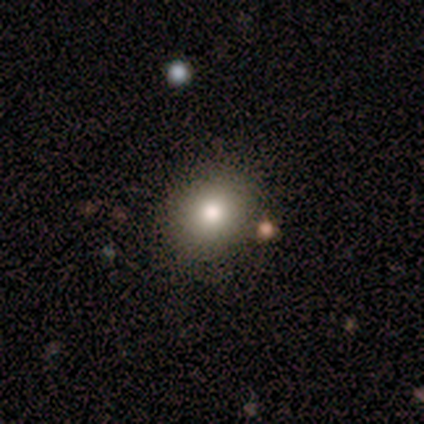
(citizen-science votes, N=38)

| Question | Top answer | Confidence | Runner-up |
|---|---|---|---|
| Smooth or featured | smooth | 71% | star or artifact (16%) |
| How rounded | round | 96% | in between (4%) |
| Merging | none | 84% | minor disturbance (6%) |